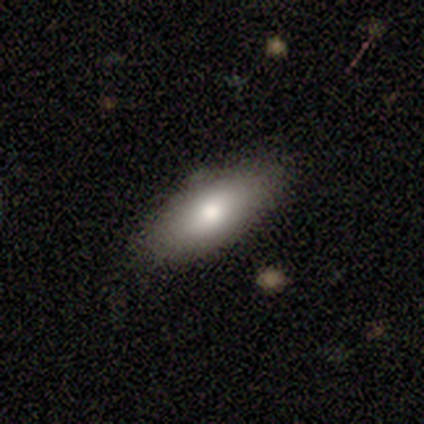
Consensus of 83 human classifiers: Overall: smooth (77%). How rounded: in between (81%). Merging: none (77%).